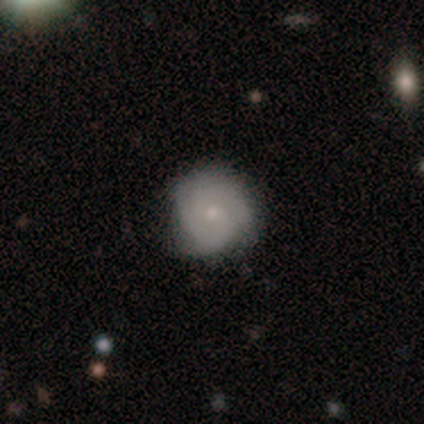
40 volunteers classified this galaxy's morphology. This appears to be a smooth galaxy with no disk features (57%) that is round (96%). Merging: none (74%).